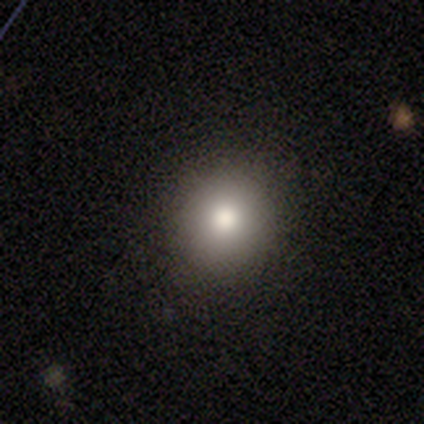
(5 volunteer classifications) Smooth or featured? 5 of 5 (100%) said smooth. How rounded? 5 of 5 (100%) said round. Merging? 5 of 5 (100%) said none.